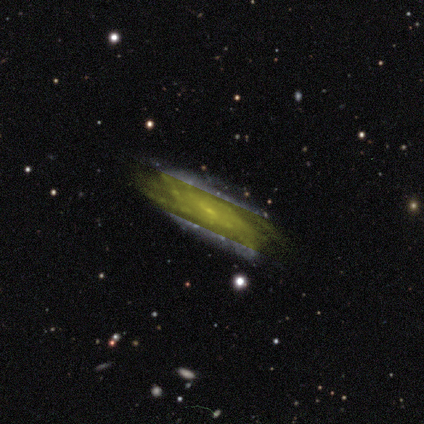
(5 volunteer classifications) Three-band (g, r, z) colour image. It shows a featured or disk galaxy (60%) with a weak bar (100%), tight (67%) spiral arms (100%) and a small central bulge (67%). Merging: none (100%).